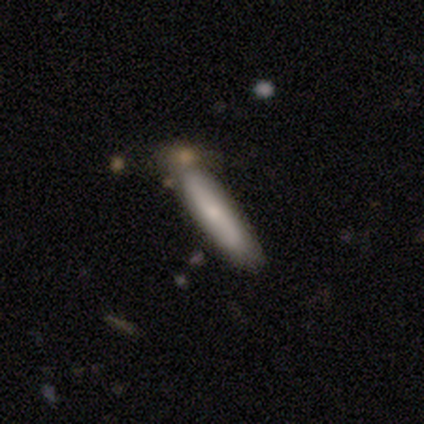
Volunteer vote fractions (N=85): Morphology: type=smooth (60%); roundness=cigar-shaped (88%); merging=none (78%).